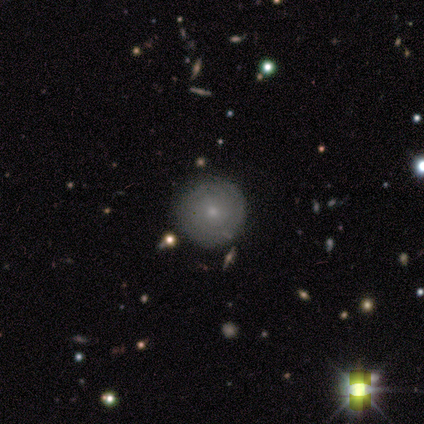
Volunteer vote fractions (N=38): Overall: featured or disk (50%; smooth 45%). Edge-on disk: no (100%). Bar: no (84%). Spiral arms: yes (84%). Spiral arm count: can't tell (62%). Spiral winding: tight (100%). Bulge size: small (79%). Merging: none (92%).